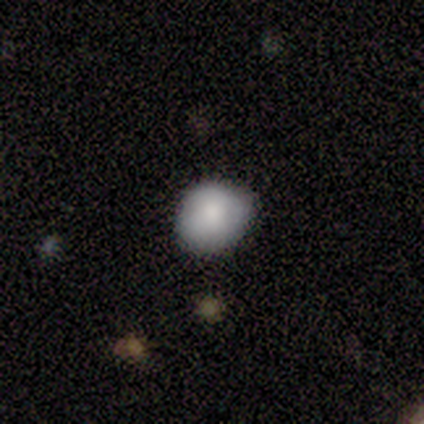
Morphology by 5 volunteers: A smooth galaxy with no disk features (100%) that is round (80%). Merging: none (80%).